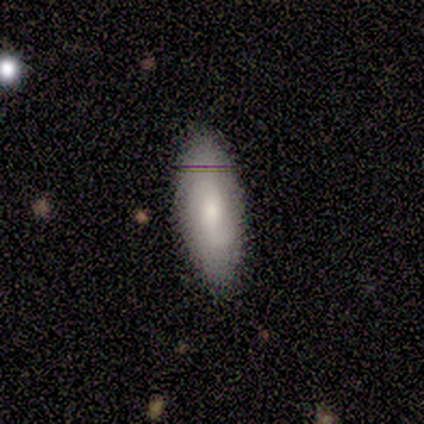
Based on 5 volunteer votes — Q: Smooth or featured?
A: featured or disk (80%); runner-up: smooth (20%)
Q: Edge-on disk?
A: no (100%)
Q: Bar?
A: no (75%); runner-up: strong (25%)
Q: Spiral arms?
A: yes (50%); tied with: no (50%)
Q: Spiral winding?
A: tight (50%); tied with: loose (50%)
Q: Spiral arm count?
A: 1 (50%); tied with: 2 (50%)
Q: Bulge size?
A: moderate (75%); runner-up: small (25%)
Q: Merging?
A: none (80%); runner-up: minor disturbance (20%)